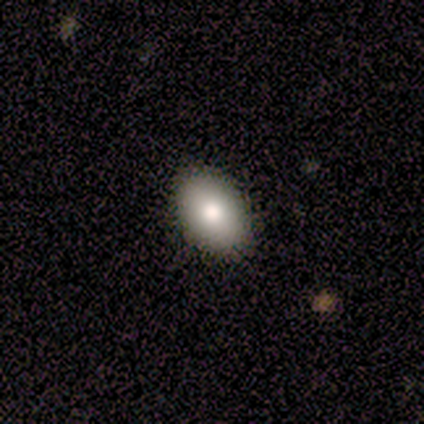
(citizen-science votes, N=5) Overall: smooth (80%). How rounded: in between (100%). Merging: none (100%).